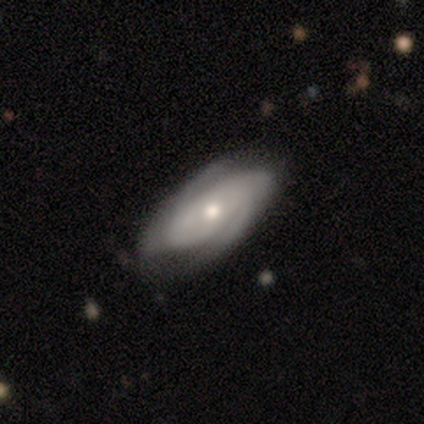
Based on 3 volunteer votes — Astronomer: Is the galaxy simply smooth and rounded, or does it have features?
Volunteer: featured or disk — 67%.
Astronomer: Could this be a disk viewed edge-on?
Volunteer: no — 100%.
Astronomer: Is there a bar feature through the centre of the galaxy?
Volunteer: no — 100%.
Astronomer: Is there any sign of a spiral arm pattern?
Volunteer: yes — 100%.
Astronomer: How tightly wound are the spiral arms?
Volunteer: tight — 100%.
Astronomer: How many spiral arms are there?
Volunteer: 2 — 100%.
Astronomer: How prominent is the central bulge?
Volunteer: moderate — 50%, tied with small at 50%.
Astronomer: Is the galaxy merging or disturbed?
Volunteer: none — 100%.